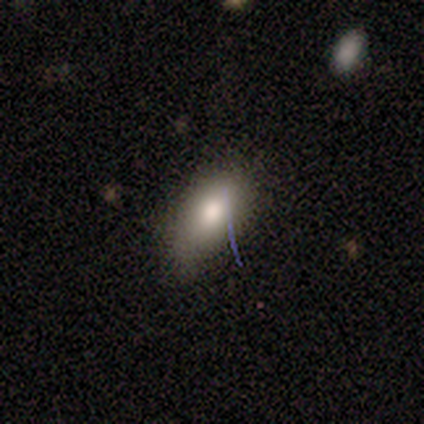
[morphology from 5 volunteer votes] Smooth or featured: smooth — 80% (star or artifact — 20%)
How rounded: in between — 100%
Merging: none — 50% (tied with minor disturbance — 50%)